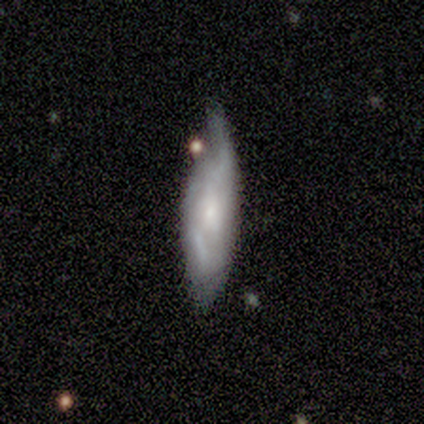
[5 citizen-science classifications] A featured or disk galaxy (100%) with a weak bar (50%, tied with no), tight (100%) spiral arms (75%) and a small central bulge (50%).

Vote fractions:
- Smooth or featured? featured or disk: 100% / smooth: 0% / star or artifact: 0%
- Edge-on disk? no: 80% / yes: 20%
- Bar? weak: 50% (tied) / no: 50% (tied) / strong: 0%
- Spiral arms? yes: 75% / no: 25%
- Spiral winding? tight: 100% / medium: 0% / loose: 0%
- Spiral arm count? can't tell: 100% / 1: 0% / 2: 0% / 3: 0% / 4: 0% / more than 4: 0%
- Bulge size? small: 50% / moderate: 25% / none: 25% / dominant: 0% / large: 0%
- Merging? minor disturbance: 80% / none: 20% / major disturbance: 0% / merger: 0%